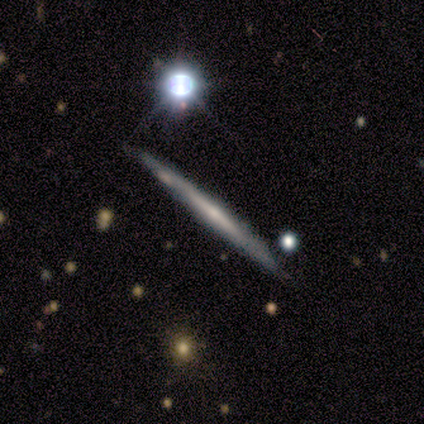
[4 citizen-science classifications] smooth_or_featured: featured or disk (p=0.75) [alt: smooth p=0.25]
disk_edge_on: yes (p=1.00)
edge_on_bulge: rounded (p=0.67) [alt: none p=0.33]
merging: none (p=0.75) [alt: minor disturbance p=0.25]